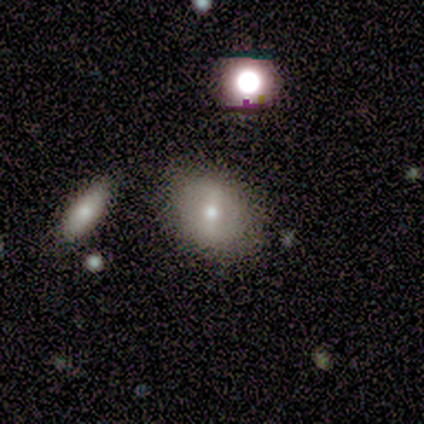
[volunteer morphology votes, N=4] Volunteers were most divided on "smooth or featured" (2-way tie): smooth: 50%, star or artifact: 50%, featured or disk: 0%. More confident: how rounded — round (100%); merging — none (100%).